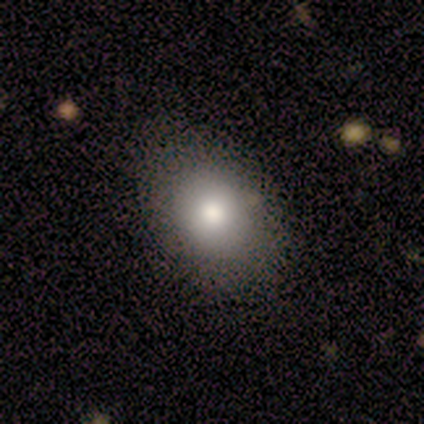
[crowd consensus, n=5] Volunteers were most divided on "how rounded": in between: 60%, round: 40%, cigar-shaped: 0%. More confident: smooth or featured — smooth (100%); merging — none (80%).